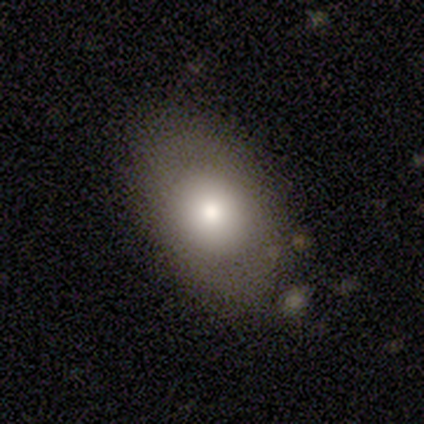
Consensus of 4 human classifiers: Smooth or featured: smooth — 100%
How rounded: in between — 75% (round — 25%)
Merging: none — 50% (tied with major disturbance — 50%)